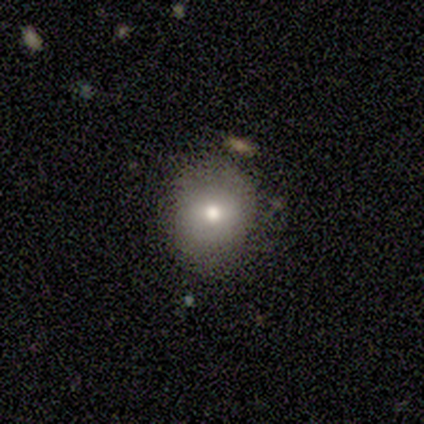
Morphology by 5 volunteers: smooth_or_featured: smooth (p=0.60) [alt: featured or disk p=0.40]
how_rounded: round (p=0.67) [alt: in between p=0.33]
merging: none (p=1.00)